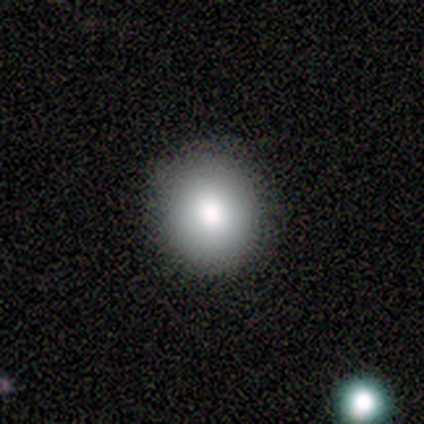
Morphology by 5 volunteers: This is clearly a smooth galaxy (80%). How rounded: likely round (75%). Merging: clearly none (100%).